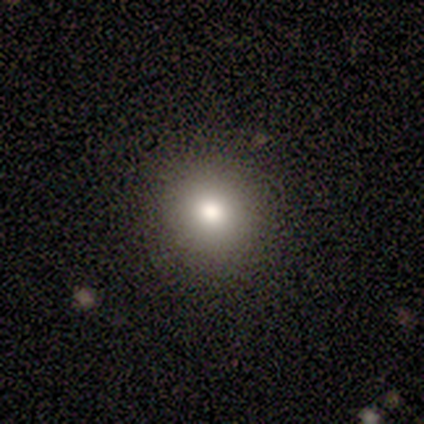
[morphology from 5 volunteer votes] Volunteers were most divided on "smooth or featured": smooth: 60%, featured or disk: 40%, star or artifact: 0%. More confident: merging — none (100%); how rounded — round (67%).